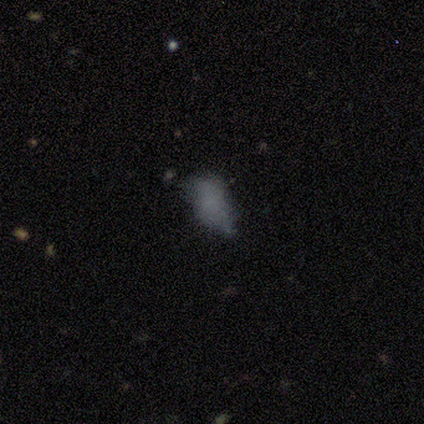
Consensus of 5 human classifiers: smooth-or-featured: smooth: 60% | featured or disk: 40% | star or artifact: 0%
  how-rounded: in between: 100% | round: 0% | cigar-shaped: 0%
  merging: minor disturbance: 60% | none: 20% | major disturbance: 20% | merger: 0%